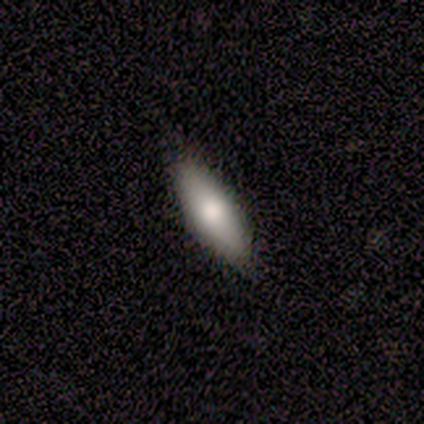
Smooth or featured? smooth (100%)
How rounded? in between (50%, tied with cigar-shaped)
Merging? none (100%)